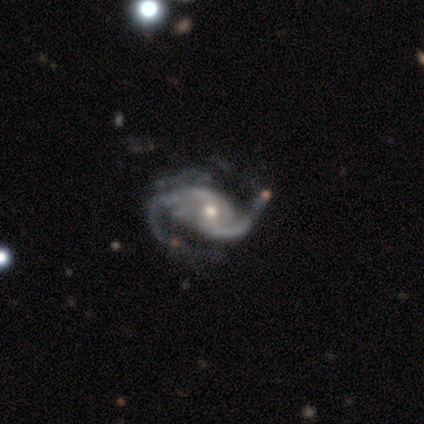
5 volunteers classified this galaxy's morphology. Smooth or featured? 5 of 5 (100%) said featured or disk. Edge-on disk? 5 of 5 (100%) said no. Bar? 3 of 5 (60%) said no. Spiral arms? 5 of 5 (100%) said yes. Spiral winding? 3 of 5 (60%) said loose. Spiral arm count? 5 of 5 (100%) said 2. Bulge size? 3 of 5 (60%) said moderate. Merging? 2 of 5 (40%, tied with major disturbance) said none.